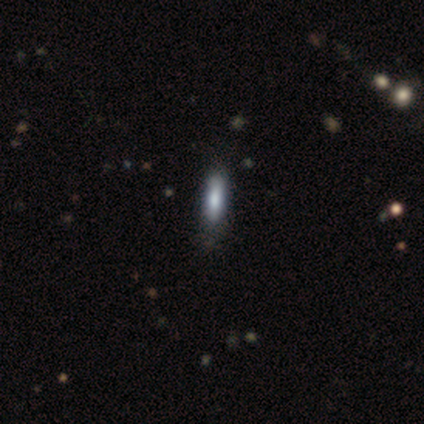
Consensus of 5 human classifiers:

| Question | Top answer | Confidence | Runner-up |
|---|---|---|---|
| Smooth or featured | featured or disk | 60% | smooth (40%) |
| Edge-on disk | yes | 67% | no (33%) |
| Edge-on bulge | boxy | 100% | — |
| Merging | none | 80% | minor disturbance (20%) |